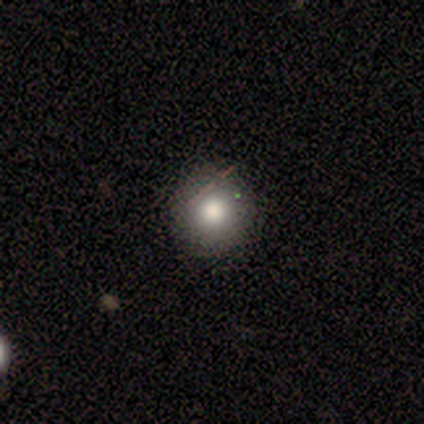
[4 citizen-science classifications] A smooth galaxy with no disk features (75%) that is round (100%).

Vote fractions:
- Smooth or featured? smooth: 75% / star or artifact: 25% / featured or disk: 0%
- How rounded? round: 100% / in between: 0% / cigar-shaped: 0%
- Merging? none: 100% / minor disturbance: 0% / major disturbance: 0% / merger: 0%